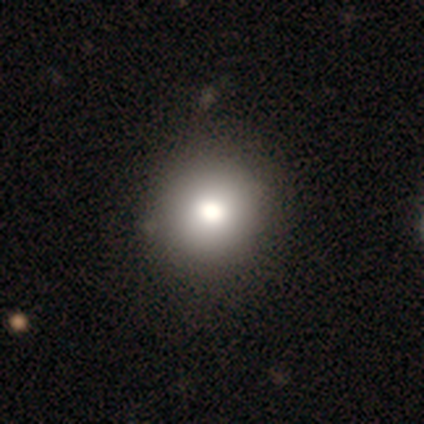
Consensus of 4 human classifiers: Q: Smooth or featured?
A: smooth (75%); runner-up: featured or disk (25%)
Q: How rounded?
A: round (100%)
Q: Merging?
A: none (100%)